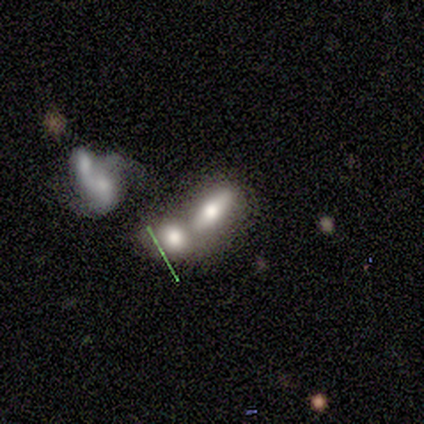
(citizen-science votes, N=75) Smooth or featured? 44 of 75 (59%) said smooth. How rounded? 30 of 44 (68%) said in between. Merging? 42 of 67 (63%) said merger.